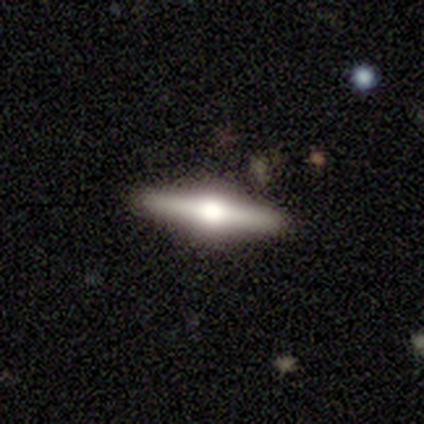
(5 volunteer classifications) This is clearly a featured or disk galaxy (100%). It is clearly viewed edge-on (100%). Edge-on bulge: clearly rounded (100%). Merging: clearly none (100%).